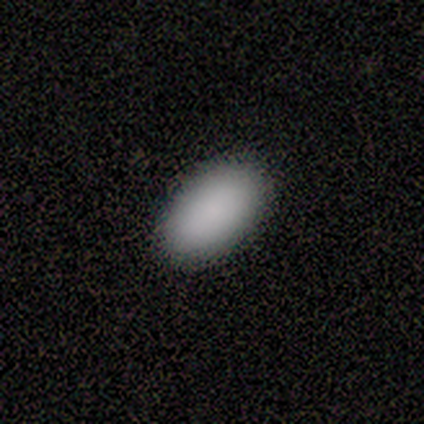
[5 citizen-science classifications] A smooth galaxy with no disk features (80%) that is in between round and cigar-shaped (75%). Merging: none (100%).